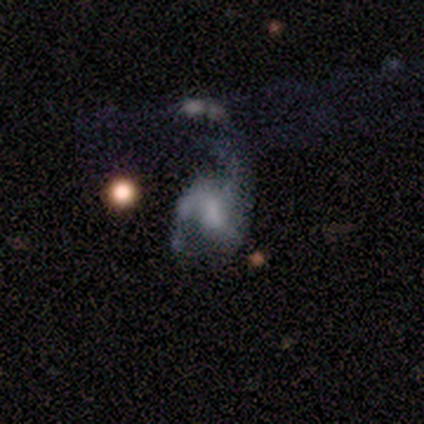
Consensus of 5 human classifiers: Overall: featured or disk (80%). Edge-on disk: no (100%). Bar: no (75%). Spiral arms: yes (50%, tied with no). Spiral arm count: 1 (50%, tied with 2). Spiral winding: loose (100%). Bulge size: dominant (25%, tied with large, moderate and none). Merging: minor disturbance (50%; none 25%).